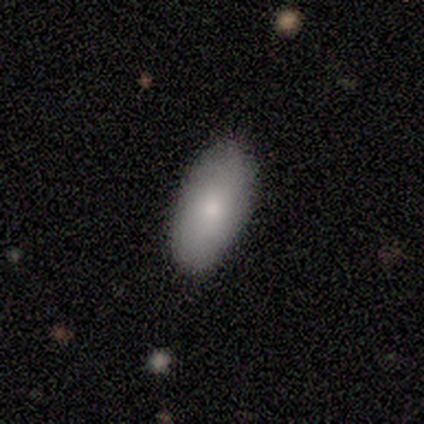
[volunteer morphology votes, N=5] smooth-or-featured: smooth: 80% | featured or disk: 20% | star or artifact: 0%
  how-rounded: in between: 100% | round: 0% | cigar-shaped: 0%
  merging: none: 60% | minor disturbance: 40% | major disturbance: 0% | merger: 0%